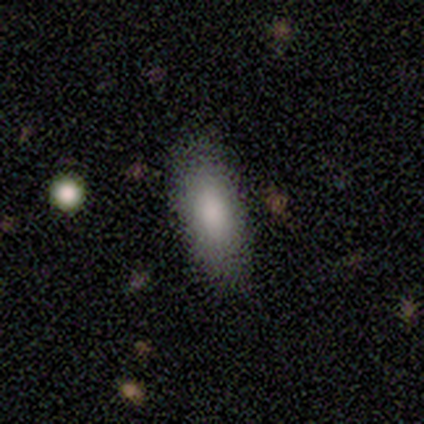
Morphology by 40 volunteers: This is clearly a smooth galaxy (80%). How rounded: likely in between (75%). Merging: clearly none (86%).